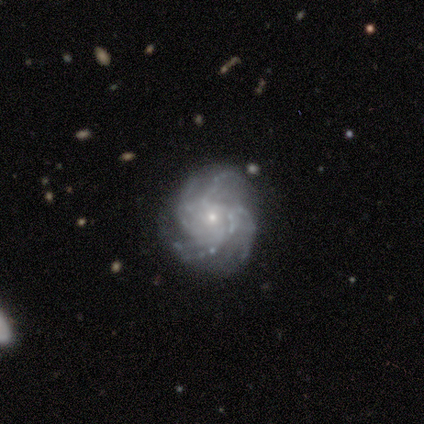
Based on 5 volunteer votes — Overall: featured or disk (100%). Edge-on disk: no (100%). Bar: weak (40%, tied with no). Spiral arms: yes (100%). Spiral arm count: 4 (60%; 3 20%). Spiral winding: medium (60%; tight 40%). Bulge size: small (100%). Merging: none (80%).